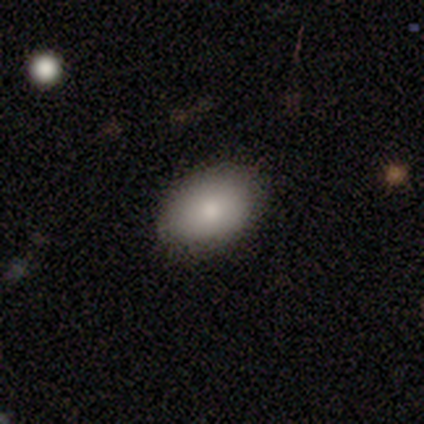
smooth_or_featured: smooth (p=0.86) [alt: featured or disk p=0.14]
how_rounded: in between (p=1.00)
merging: none (p=0.86) [alt: minor disturbance p=0.14]